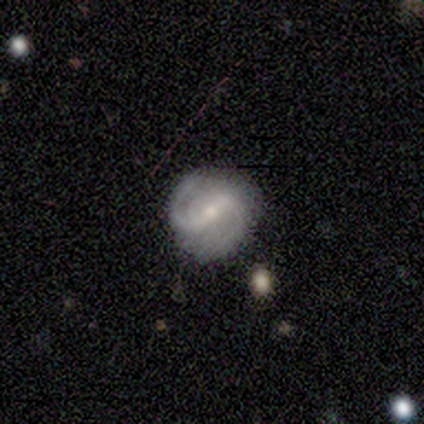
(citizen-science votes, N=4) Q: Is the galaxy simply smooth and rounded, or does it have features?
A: featured or disk — 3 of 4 (75%).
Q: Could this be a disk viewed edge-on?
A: no — 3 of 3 (100%).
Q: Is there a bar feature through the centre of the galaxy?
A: strong — 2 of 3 (67%).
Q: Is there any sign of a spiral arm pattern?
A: yes — 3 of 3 (100%).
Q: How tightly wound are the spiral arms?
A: medium — 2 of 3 (67%).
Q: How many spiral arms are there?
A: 2 — 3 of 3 (100%).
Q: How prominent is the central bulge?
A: small — 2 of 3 (67%).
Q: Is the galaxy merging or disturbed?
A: none — 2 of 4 (50%).